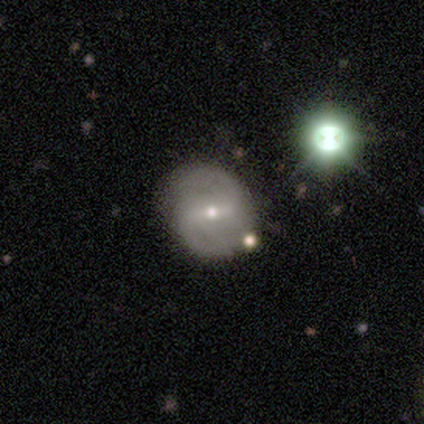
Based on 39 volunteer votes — smooth-or-featured: featured or disk: 74% | smooth: 15% | star or artifact: 10%
  disk-edge-on: no: 100% | yes: 0%
    bar: weak: 52% | strong: 41% | no: 7%
    has-spiral-arms: yes: 100% | no: 0%
      spiral-winding: medium: 41% (tied) | loose: 41% (tied) | tight: 17%
      spiral-arm-count: 2: 79% | can't tell: 14% | 1: 7% | 3: 0% | 4: 0% | more than 4: 0%
    bulge-size: small: 55% | moderate: 45% | dominant: 0% | large: 0% | none: 0%
  merging: none: 77% | merger: 14% | minor disturbance: 9% | major disturbance: 0%